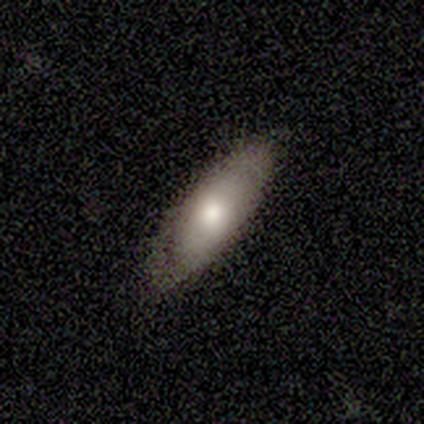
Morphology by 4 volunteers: smooth_or_featured: smooth (p=0.50) [tied with: featured or disk p=0.50]
how_rounded: in between (p=0.50) [tied with: cigar-shaped p=0.50]
merging: none (p=0.75) [alt: minor disturbance p=0.25]